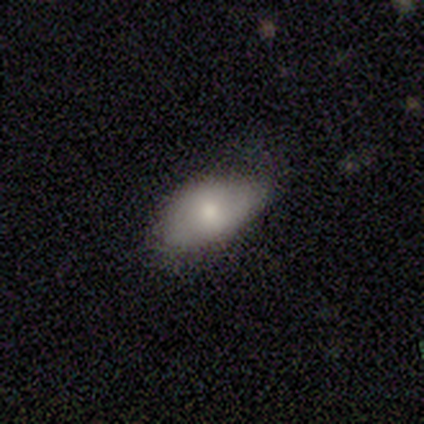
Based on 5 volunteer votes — Smooth or featured: smooth — 80% (featured or disk — 20%)
How rounded: in between — 100%
Merging: none — 60% (minor disturbance — 40%)